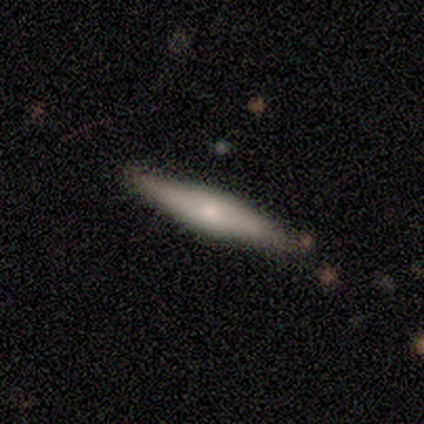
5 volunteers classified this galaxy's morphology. Volunteers were most divided on "smooth or featured": smooth: 60%, featured or disk: 40%, star or artifact: 0%. More confident: how rounded — cigar-shaped (100%); merging — none (100%).